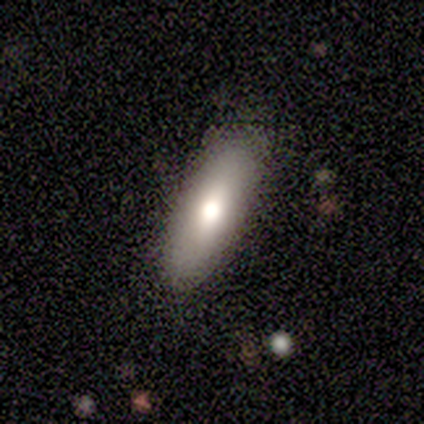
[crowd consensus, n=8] smooth_or_featured: smooth (p=0.75) [alt: featured or disk p=0.12]
how_rounded: in between (p=0.83) [alt: cigar-shaped p=0.17]
merging: none (p=1.00)